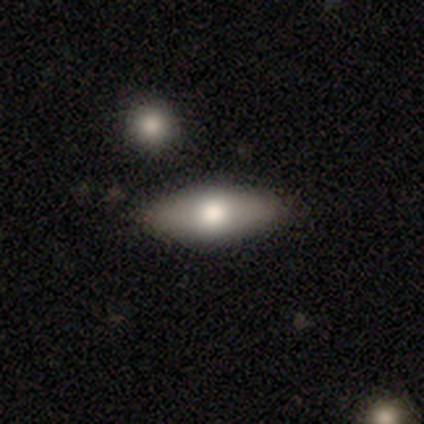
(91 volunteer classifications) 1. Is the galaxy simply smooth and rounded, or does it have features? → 63% smooth, 32% featured or disk, 5% star or artifact.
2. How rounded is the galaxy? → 77% in between, 23% cigar-shaped, 0% round.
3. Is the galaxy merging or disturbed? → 88% none, 7% minor disturbance, 3% merger, 1% major disturbance.